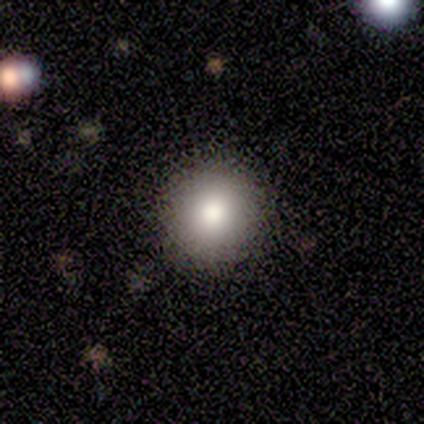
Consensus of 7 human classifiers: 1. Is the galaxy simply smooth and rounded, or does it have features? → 86% smooth, 14% featured or disk, 0% star or artifact.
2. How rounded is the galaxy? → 83% round, 17% in between, 0% cigar-shaped.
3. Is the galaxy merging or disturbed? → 71% none, 29% minor disturbance, 0% major disturbance, 0% merger.